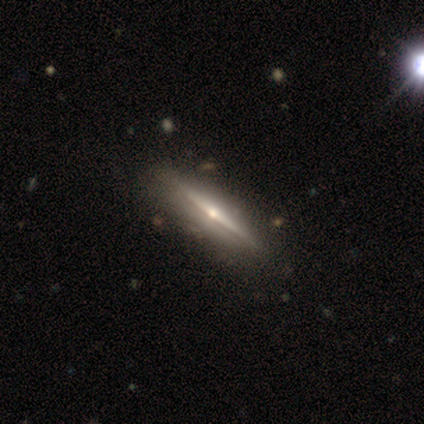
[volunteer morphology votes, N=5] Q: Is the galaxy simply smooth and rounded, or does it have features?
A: featured or disk — 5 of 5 (100%).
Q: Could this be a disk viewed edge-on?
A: yes — 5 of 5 (100%).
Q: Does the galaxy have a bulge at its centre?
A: rounded — 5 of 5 (100%).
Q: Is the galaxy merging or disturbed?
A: none — 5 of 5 (100%).